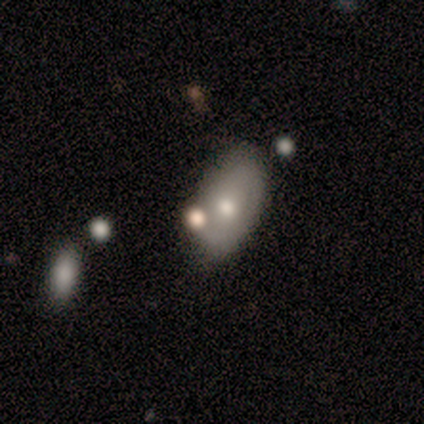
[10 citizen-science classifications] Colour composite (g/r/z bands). It shows a featured or disk galaxy (70%) with no bar (86%), no spiral arms (71%) and a moderate central bulge (86%). Merging: none (80%).